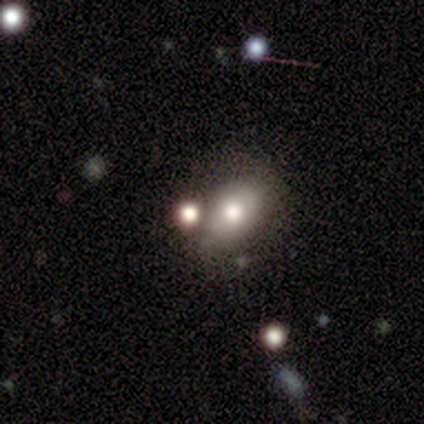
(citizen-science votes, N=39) A smooth galaxy with no disk features (62%) that is in between round and cigar-shaped (71%). Merging: none (48%).